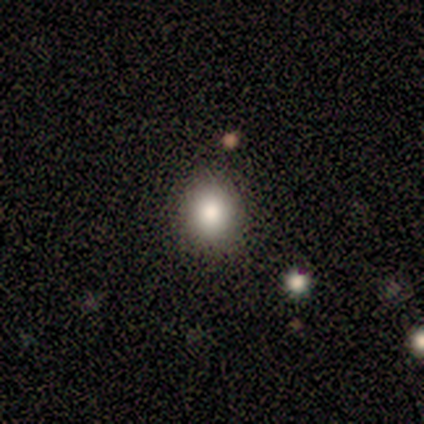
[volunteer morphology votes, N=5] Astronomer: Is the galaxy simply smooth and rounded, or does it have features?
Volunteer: smooth — 100%.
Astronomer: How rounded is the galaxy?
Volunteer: round — 80%.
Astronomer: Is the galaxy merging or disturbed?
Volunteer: none — 100%.